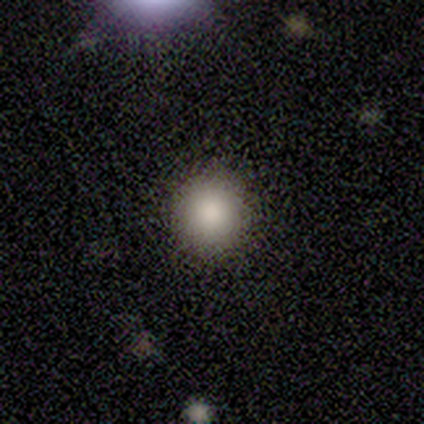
smooth 80%, featured or disk 20%, star or artifact 0%. Down the decision tree: how rounded — round (100%); merging — none (100%).